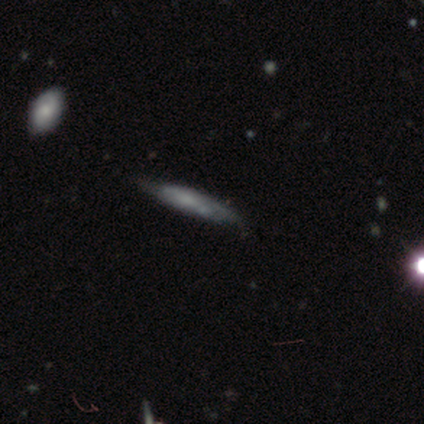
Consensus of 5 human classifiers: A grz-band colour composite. It shows a smooth galaxy with no disk features (60%) that is cigar-shaped (100%). Merging: none (75%).